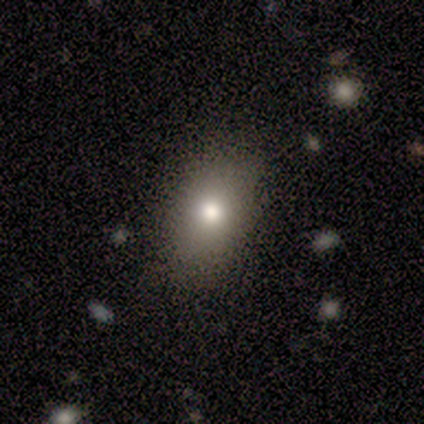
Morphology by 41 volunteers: smooth-or-featured: smooth: 78% | star or artifact: 12% | featured or disk: 10%
  how-rounded: in between: 69% | round: 31% | cigar-shaped: 0%
  merging: none: 81% | minor disturbance: 19% | major disturbance: 0% | merger: 0%